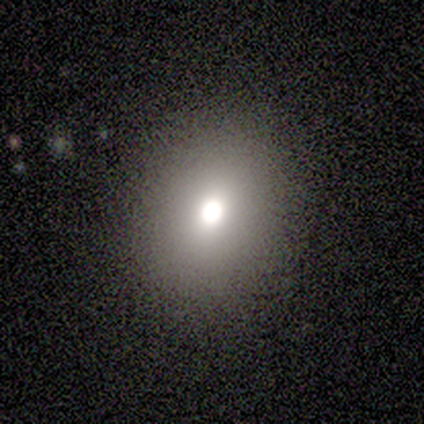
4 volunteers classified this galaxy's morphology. smooth-or-featured: smooth: 75% | featured or disk: 25% | star or artifact: 0%
  how-rounded: in between: 67% | round: 33% | cigar-shaped: 0%
  merging: none: 75% | minor disturbance: 25% | major disturbance: 0% | merger: 0%